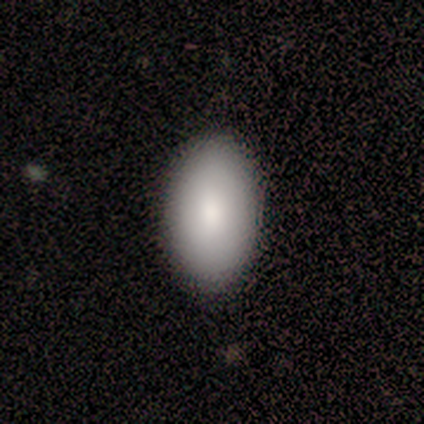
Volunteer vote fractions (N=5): Smooth or featured?
  - smooth: 100% *
  - featured or disk: 0%
  - star or artifact: 0%
How rounded?
  - in between: 100% *
  - round: 0%
  - cigar-shaped: 0%
Merging?
  - none: 80% *
  - minor disturbance: 20%
  - major disturbance: 0%
  - merger: 0%